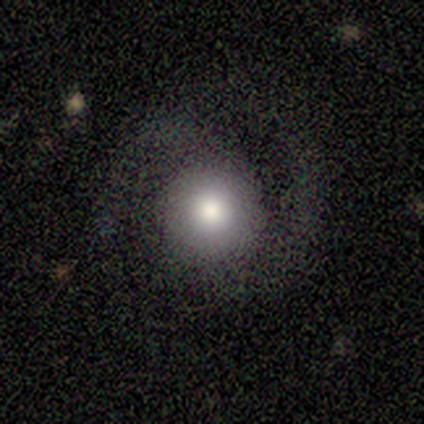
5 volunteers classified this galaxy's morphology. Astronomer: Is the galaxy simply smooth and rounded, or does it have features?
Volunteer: featured or disk — 80%.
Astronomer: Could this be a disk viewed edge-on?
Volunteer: no — 100%.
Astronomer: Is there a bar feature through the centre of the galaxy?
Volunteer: no — 75%.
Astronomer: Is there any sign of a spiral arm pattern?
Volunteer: yes — 75%.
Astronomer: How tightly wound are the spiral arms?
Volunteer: medium — 67%.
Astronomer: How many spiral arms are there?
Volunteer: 2 — 100%.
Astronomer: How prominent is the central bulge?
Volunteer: large — 75%.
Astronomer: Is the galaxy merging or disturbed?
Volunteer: none — 80%.